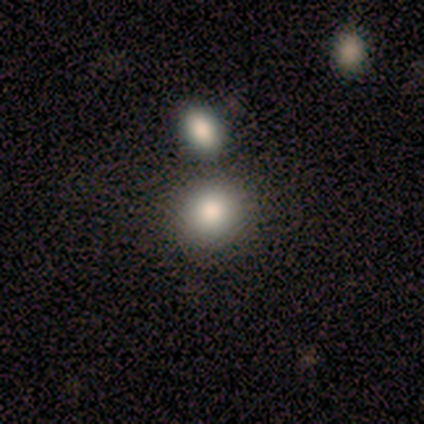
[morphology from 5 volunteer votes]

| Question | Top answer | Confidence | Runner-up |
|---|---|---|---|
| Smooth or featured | smooth | 80% | star or artifact (20%) |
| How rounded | round | 75% | in between (25%) |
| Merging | none | 50% | tied: merger (50%) |